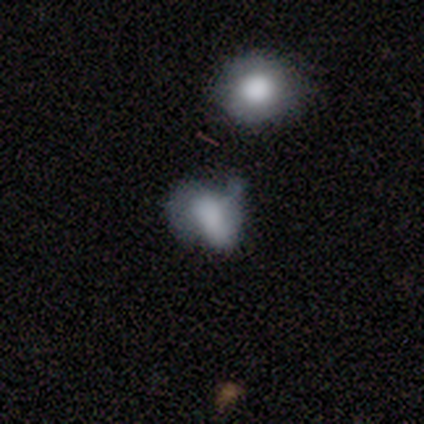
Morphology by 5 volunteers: This is likely a smooth galaxy (60%). How rounded: likely round (67%). Merging: likely major disturbance (60%).